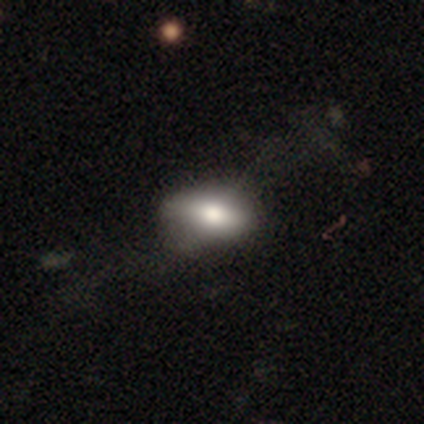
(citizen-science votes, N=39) This appears to be a smooth galaxy with no disk features (62%) that is in between round and cigar-shaped (88%). Merging: none (41%).